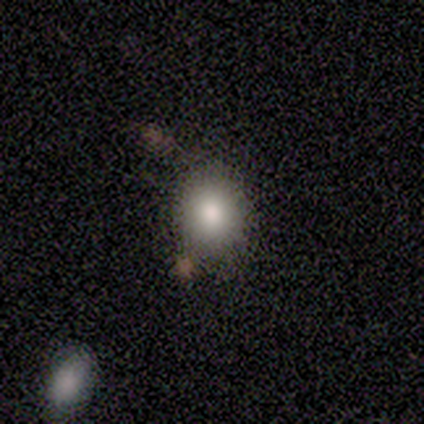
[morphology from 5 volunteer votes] Smooth or featured: smooth — 80% (star or artifact — 20%)
How rounded: round — 100%
Merging: none — 50% (minor disturbance — 25%)